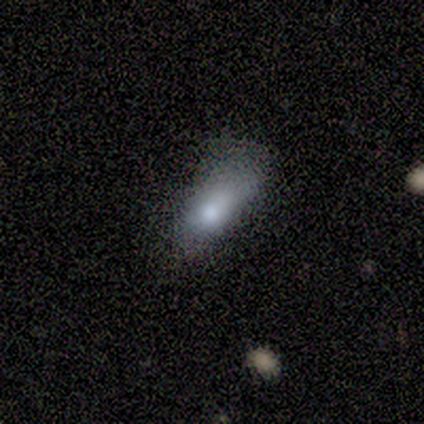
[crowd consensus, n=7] smooth 86%, featured or disk 14%, star or artifact 0%. Down the decision tree: how rounded — in between (67%); merging — minor disturbance (57%).